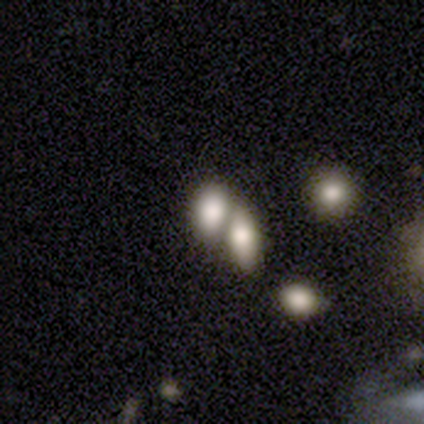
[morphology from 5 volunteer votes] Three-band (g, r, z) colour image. It shows a smooth galaxy with no disk features (100%) that is in between round and cigar-shaped (100%). Merging: merger (80%).